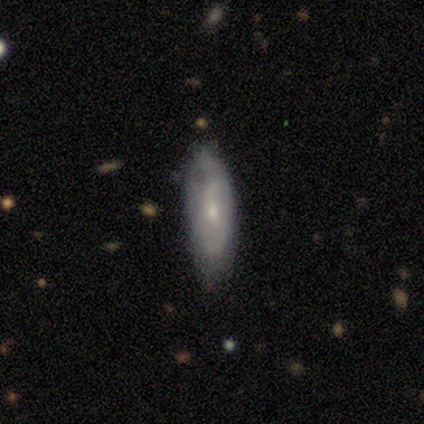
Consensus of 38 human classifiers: Morphology: type=featured or disk (53%); edge-on=no (80%); bar=no (62%); spiral arms=yes (94%); winding=loose (67%); arm count=2 (80%); bulge=small (56%); merging=none (55%).